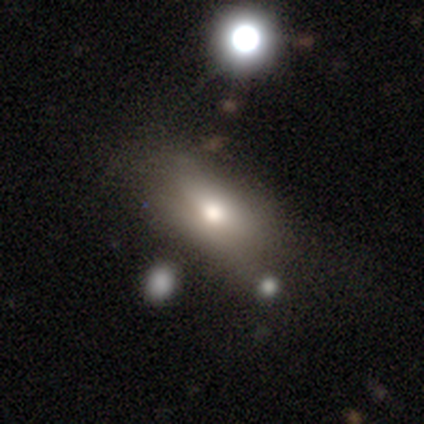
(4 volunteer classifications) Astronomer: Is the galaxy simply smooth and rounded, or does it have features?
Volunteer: smooth — 50%, tied with featured or disk at 50%.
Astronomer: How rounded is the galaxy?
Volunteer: in between — 100%.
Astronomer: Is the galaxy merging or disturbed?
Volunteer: none — 50%.